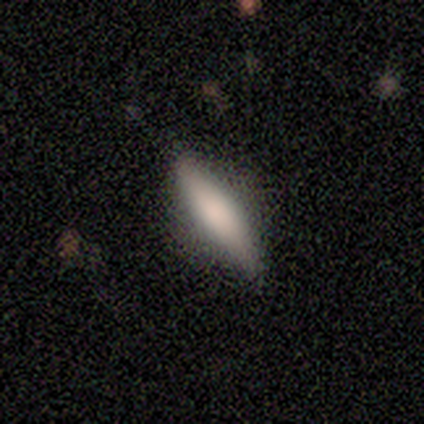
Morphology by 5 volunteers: type=smooth (100%); roundness=cigar-shaped (60%); merging=none (80%).